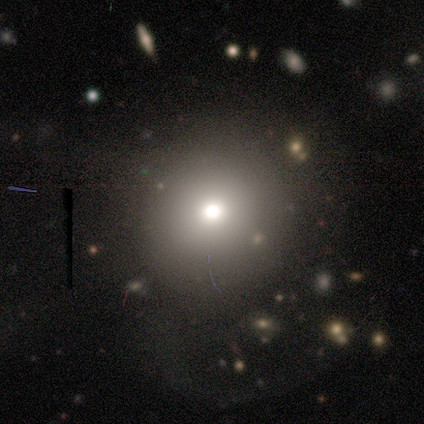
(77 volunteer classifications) A smooth galaxy with no disk features (57%) that is round (98%). Merging: none (30%).